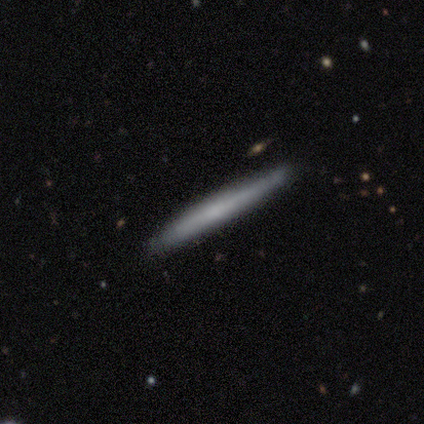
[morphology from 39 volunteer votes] smooth_or_featured: smooth (p=0.51) [alt: featured or disk p=0.44]
how_rounded: cigar-shaped (p=0.95) [alt: round p=0.05]
merging: none (p=0.86) [alt: minor disturbance p=0.11]